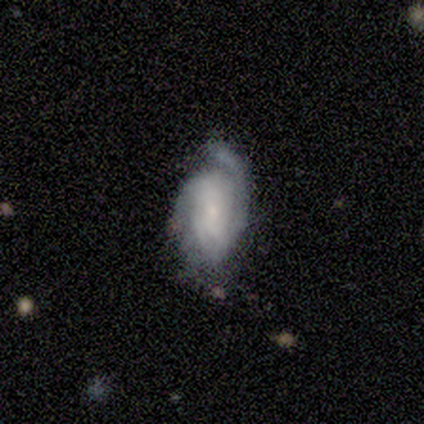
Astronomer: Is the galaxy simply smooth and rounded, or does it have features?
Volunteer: featured or disk — 80%.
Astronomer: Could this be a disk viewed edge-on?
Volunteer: no — 100%.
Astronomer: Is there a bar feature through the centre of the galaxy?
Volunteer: weak — 50%, tied with no at 50%.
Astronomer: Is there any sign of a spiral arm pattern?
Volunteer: yes — 75%.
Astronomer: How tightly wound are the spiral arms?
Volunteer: tight — 67%.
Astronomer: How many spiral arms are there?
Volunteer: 1 — 33%, tied with 2 and can't tell at 33%.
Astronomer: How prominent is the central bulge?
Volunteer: small — 75%.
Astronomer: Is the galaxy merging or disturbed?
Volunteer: minor disturbance — 75%.